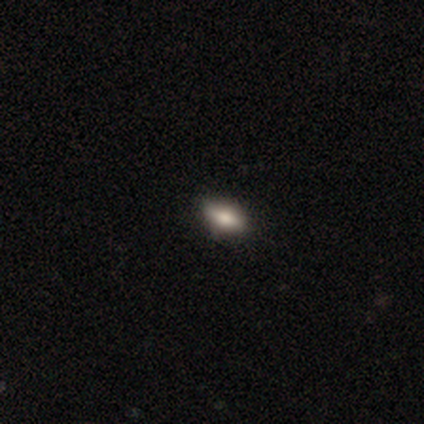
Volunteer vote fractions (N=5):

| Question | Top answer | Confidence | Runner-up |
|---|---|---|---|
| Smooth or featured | smooth | 60% | featured or disk (40%) |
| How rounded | in between | 100% | — |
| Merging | none | 100% | — |